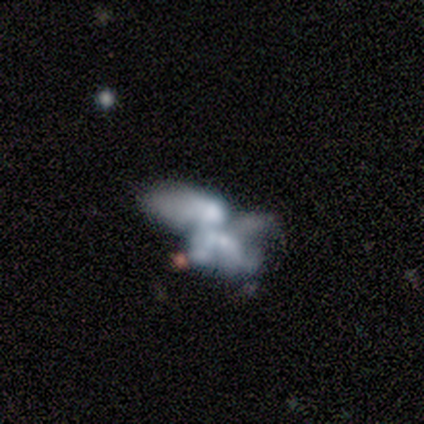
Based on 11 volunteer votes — Smooth or featured: featured or disk — 73% (smooth — 18%)
Edge-on disk: no — 100%
Bar: no — 100%
Spiral arms: no — 100%
Bulge size: none — 50% (small — 25%)
Merging: merger — 60% (none — 30%)